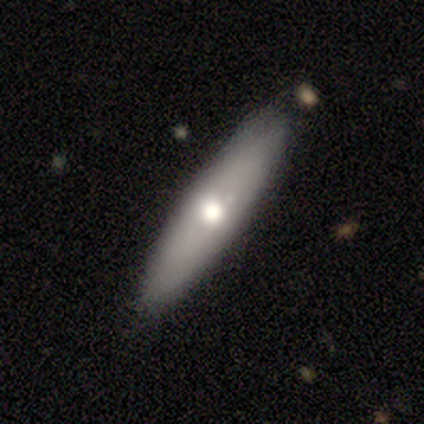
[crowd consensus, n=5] Volunteers were most divided on "edge-on disk": yes: 75%, no: 25%. More confident: edge-on bulge — rounded (100%); smooth or featured — featured or disk (80%); merging — none (80%).